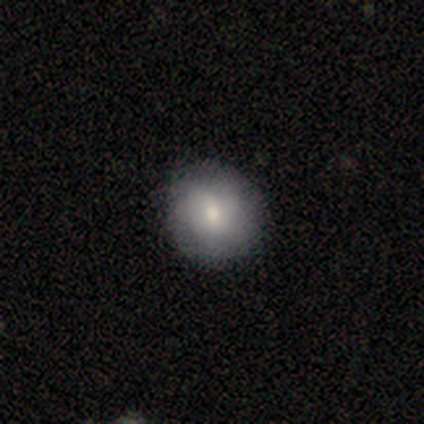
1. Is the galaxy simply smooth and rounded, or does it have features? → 71% smooth, 21% featured or disk, 8% star or artifact.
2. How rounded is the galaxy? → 89% round, 11% in between, 0% cigar-shaped.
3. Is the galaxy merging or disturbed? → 71% none, 6% minor disturbance, 3% major disturbance, 0% merger.